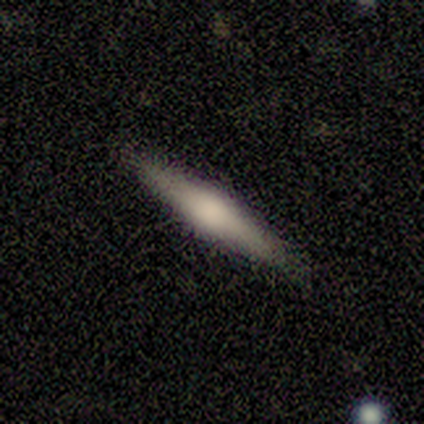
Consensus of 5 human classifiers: A smooth galaxy with no disk features (80%) that is cigar-shaped (100%).

Vote fractions:
- Smooth or featured? smooth: 80% / featured or disk: 20% / star or artifact: 0%
- How rounded? cigar-shaped: 100% / round: 0% / in between: 0%
- Merging? none: 80% / minor disturbance: 20% / major disturbance: 0% / merger: 0%